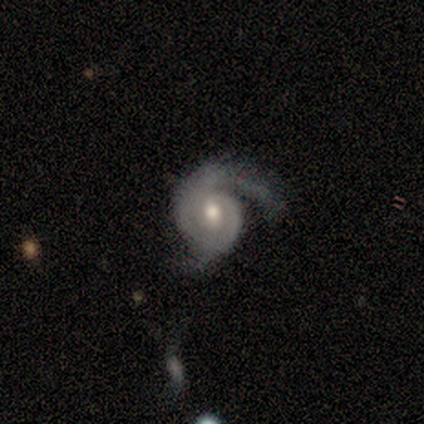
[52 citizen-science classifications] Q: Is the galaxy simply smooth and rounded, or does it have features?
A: featured or disk — 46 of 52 (88%).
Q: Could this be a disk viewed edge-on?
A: no — 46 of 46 (100%).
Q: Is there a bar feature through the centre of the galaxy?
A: no — 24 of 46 (52%).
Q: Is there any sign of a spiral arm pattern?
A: yes — 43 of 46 (93%).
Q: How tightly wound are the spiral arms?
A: tight — 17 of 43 (40%).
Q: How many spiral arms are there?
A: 2 — 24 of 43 (56%).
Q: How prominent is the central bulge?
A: moderate — 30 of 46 (65%).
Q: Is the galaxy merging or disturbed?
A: none — 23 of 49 (47%).